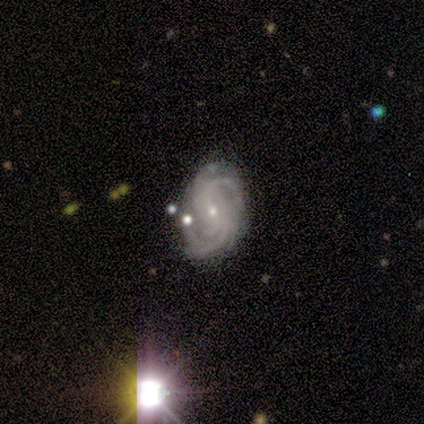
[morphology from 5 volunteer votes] featured or disk 100%, smooth 0%, star or artifact 0%. Down the decision tree: edge-on disk — no (100%); bar — weak (60%); spiral arms — yes (100%); spiral arm count — more than 4 (40%); spiral winding — tight (60%); bulge size — small (80%); merging — none (60%).